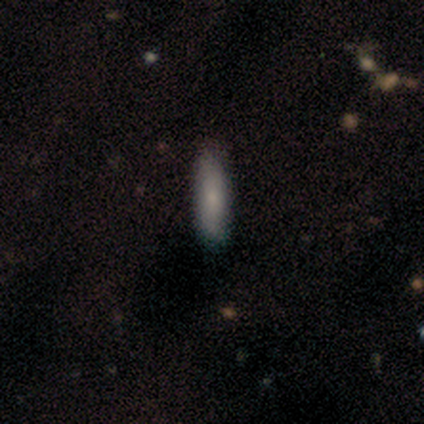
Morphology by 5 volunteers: smooth 80%, featured or disk 20%, star or artifact 0%. Down the decision tree: how rounded — cigar-shaped (75%); merging — none (100%).